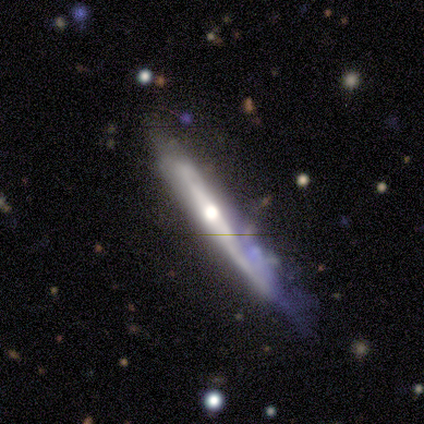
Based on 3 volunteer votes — Smooth or featured?
  - featured or disk: 100% *
  - smooth: 0%
  - star or artifact: 0%
Edge-on disk?
  - yes: 100% *
  - no: 0%
Edge-on bulge?
  - rounded: 67% *
  - none: 33%
  - boxy: 0%
Merging?
  - minor disturbance: 67% *
  - major disturbance: 33%
  - none: 0%
  - merger: 0%